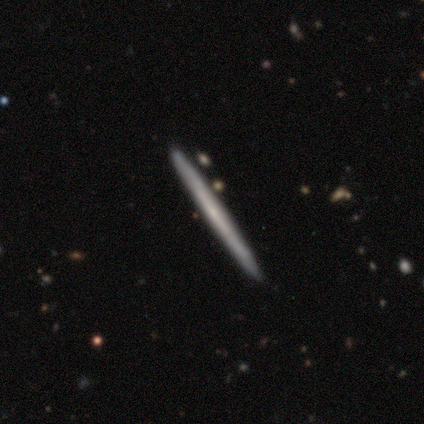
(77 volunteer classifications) featured or disk 60%, smooth 39%, star or artifact 1%. Down the decision tree: edge-on disk — yes (96%); edge-on bulge — none (84%); merging — none (50%).